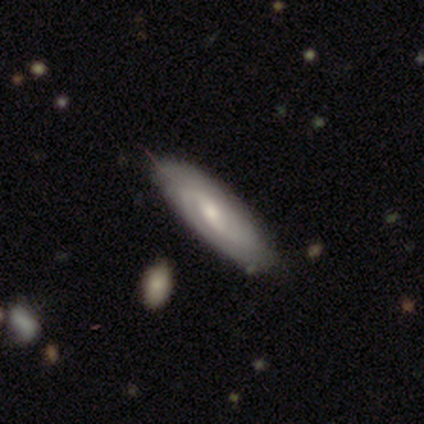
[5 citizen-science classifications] smooth_or_featured: featured or disk (p=0.80) [alt: smooth p=0.20]
disk_edge_on: no (p=1.00)
bar: no (p=0.75) [alt: strong p=0.25]
has_spiral_arms: yes (p=0.75) [alt: no p=0.25]
spiral_winding: tight (p=0.33) [tied with: medium p=0.33, loose p=0.33]
spiral_arm_count: 2 (p=1.00)
bulge_size: moderate (p=1.00)
merging: none (p=0.80) [alt: minor disturbance p=0.20]